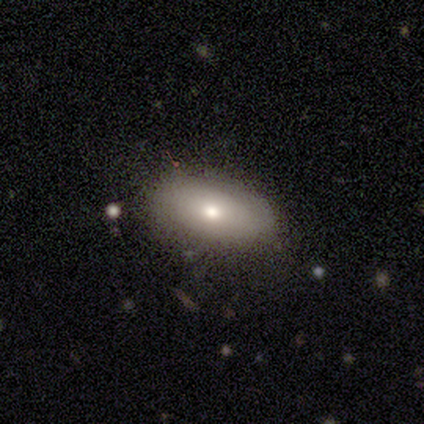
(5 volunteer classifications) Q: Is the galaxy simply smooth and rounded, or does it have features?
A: featured or disk — 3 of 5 (60%).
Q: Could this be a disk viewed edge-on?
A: no — 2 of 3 (67%).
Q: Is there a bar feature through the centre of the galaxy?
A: no — 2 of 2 (100%).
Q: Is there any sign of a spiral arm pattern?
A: no — 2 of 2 (100%).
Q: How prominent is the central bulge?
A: moderate — 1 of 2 (50%, tied with small).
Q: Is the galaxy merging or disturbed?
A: none — 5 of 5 (100%).